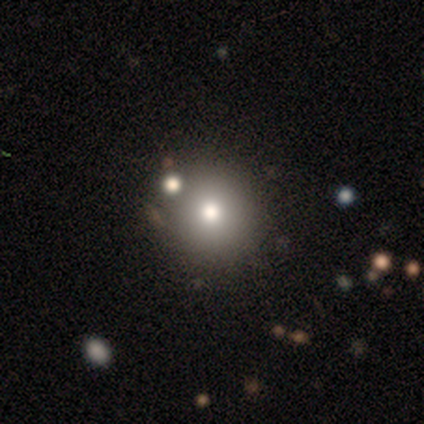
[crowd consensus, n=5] Smooth or featured? smooth (40%, tied with star or artifact)
How rounded? round (100%)
Merging? none (100%)